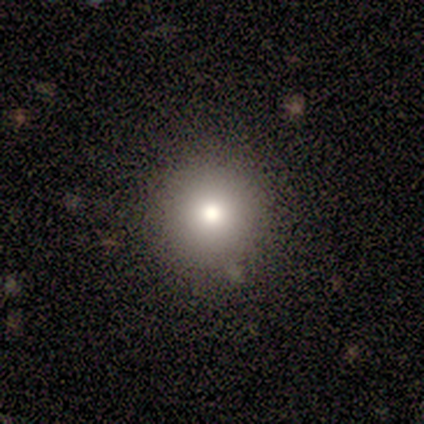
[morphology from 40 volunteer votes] Q: Smooth or featured?
A: smooth (80%); runner-up: star or artifact (15%)
Q: How rounded?
A: round (94%); runner-up: in between (3%)
Q: Merging?
A: none (91%); runner-up: minor disturbance (9%)